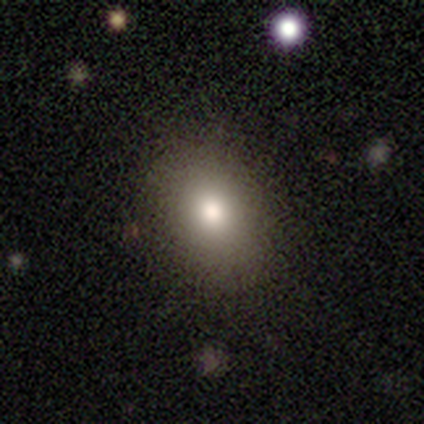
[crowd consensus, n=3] smooth-or-featured: smooth: 67% | star or artifact: 33% | featured or disk: 0%
  how-rounded: in between: 100% | round: 0% | cigar-shaped: 0%
  merging: none: 50% (tied) | minor disturbance: 50% (tied) | major disturbance: 0% | merger: 0%